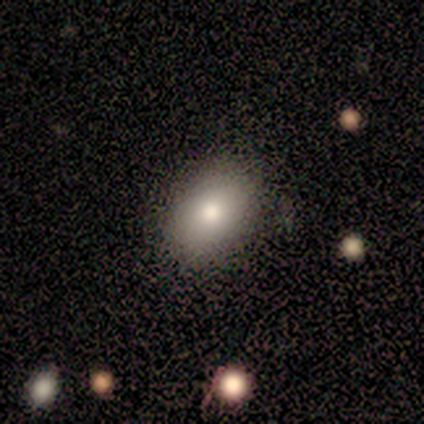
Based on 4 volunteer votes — Volunteers were most divided on "how rounded": round: 75%, in between: 25%, cigar-shaped: 0%. More confident: smooth or featured — smooth (100%); merging — none (75%).